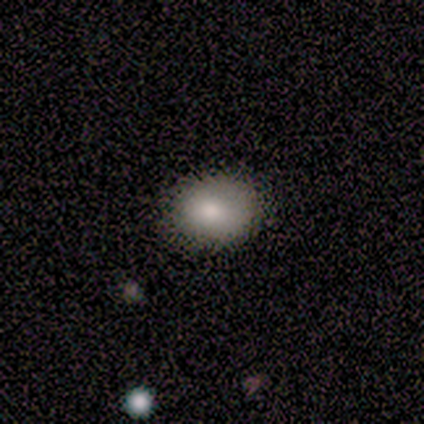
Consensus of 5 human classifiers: This is clearly a smooth galaxy (100%). How rounded: clearly in between (80%). Merging: marginally none (40%, tied with minor disturbance).